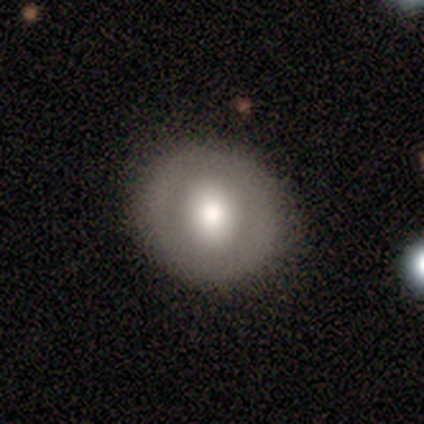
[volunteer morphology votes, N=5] Smooth or featured? 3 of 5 (60%) said smooth. How rounded? 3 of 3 (100%) said round. Merging? 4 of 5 (80%) said none.